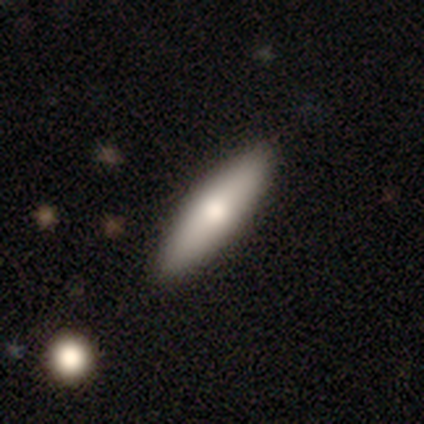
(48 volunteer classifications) Q: Smooth or featured?
A: smooth (73%); runner-up: featured or disk (25%)
Q: How rounded?
A: cigar-shaped (71%); runner-up: in between (29%)
Q: Merging?
A: none (85%); runner-up: minor disturbance (15%)